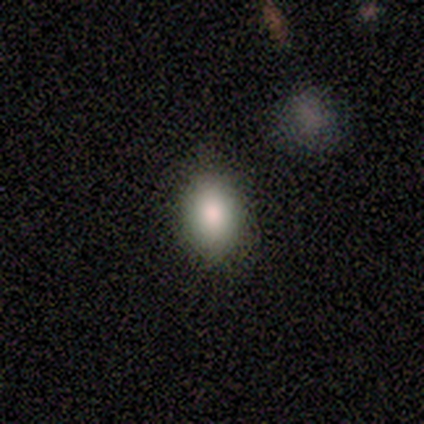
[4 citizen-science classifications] A smooth galaxy with no disk features (75%) that is in between round and cigar-shaped (67%).

Vote fractions:
- Smooth or featured? smooth: 75% / featured or disk: 25% / star or artifact: 0%
- How rounded? in between: 67% / round: 33% / cigar-shaped: 0%
- Merging? none: 75% / minor disturbance: 25% / major disturbance: 0% / merger: 0%